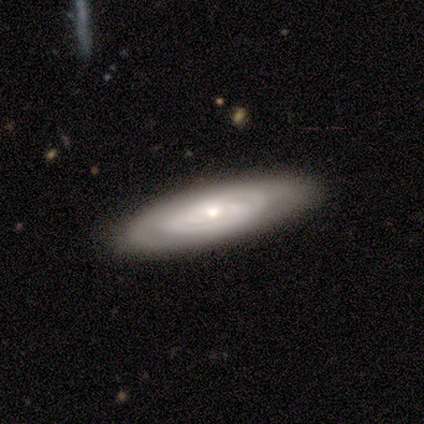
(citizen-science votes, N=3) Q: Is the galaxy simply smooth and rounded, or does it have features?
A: featured or disk — 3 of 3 (100%).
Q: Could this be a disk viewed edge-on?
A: no — 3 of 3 (100%).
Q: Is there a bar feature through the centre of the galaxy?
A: no — 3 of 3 (100%).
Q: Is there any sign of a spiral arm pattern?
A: yes — 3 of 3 (100%).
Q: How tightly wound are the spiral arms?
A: tight — 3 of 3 (100%).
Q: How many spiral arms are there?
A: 2 — 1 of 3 (33%, tied with 3 and can't tell).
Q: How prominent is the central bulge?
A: moderate — 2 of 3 (67%).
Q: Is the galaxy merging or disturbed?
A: none — 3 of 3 (100%).